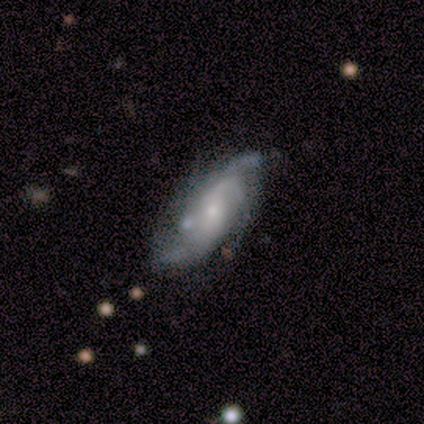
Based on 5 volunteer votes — Q: Smooth or featured?
A: featured or disk (100%)
Q: Edge-on disk?
A: no (80%); runner-up: yes (20%)
Q: Bar?
A: no (75%); runner-up: weak (25%)
Q: Spiral arms?
A: yes (100%)
Q: Spiral winding?
A: tight (50%); runner-up: medium (25%)
Q: Spiral arm count?
A: 4 (50%); runner-up: 3 (25%)
Q: Bulge size?
A: moderate (50%); tied with: small (50%)
Q: Merging?
A: none (60%); runner-up: minor disturbance (40%)